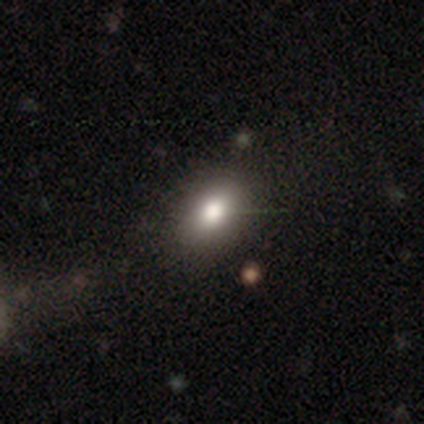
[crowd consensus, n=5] A smooth galaxy with no disk features (80%) that is in between round and cigar-shaped (75%).

Vote fractions:
- Smooth or featured? smooth: 80% / star or artifact: 20% / featured or disk: 0%
- How rounded? in between: 75% / round: 25% / cigar-shaped: 0%
- Merging? none: 75% / minor disturbance: 25% / major disturbance: 0% / merger: 0%